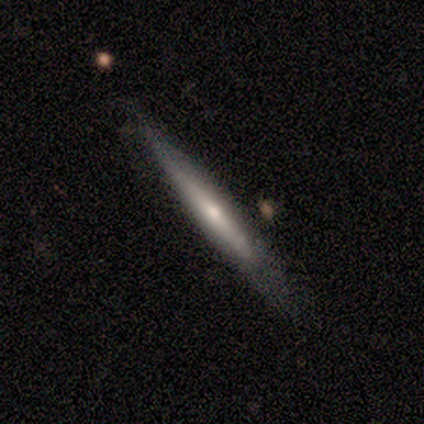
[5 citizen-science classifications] smooth_or_featured: featured or disk (p=0.80) [alt: smooth p=0.20]
disk_edge_on: yes (p=1.00)
edge_on_bulge: rounded (p=1.00)
merging: none (p=0.60) [alt: minor disturbance p=0.40]